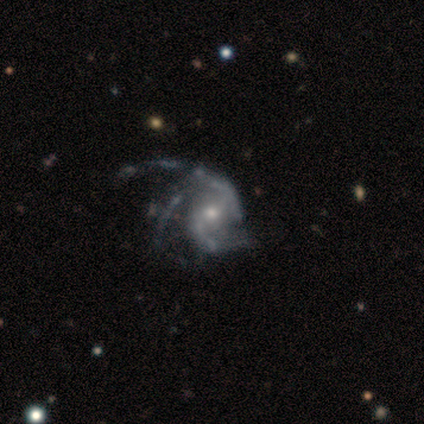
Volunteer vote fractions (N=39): Morphology: type=featured or disk (100%); edge-on=no (97%); bar=no (58%); spiral arms=yes (95%); winding=medium (53%); arm count=3 (58%); bulge=moderate (55%); merging=major disturbance (38%).